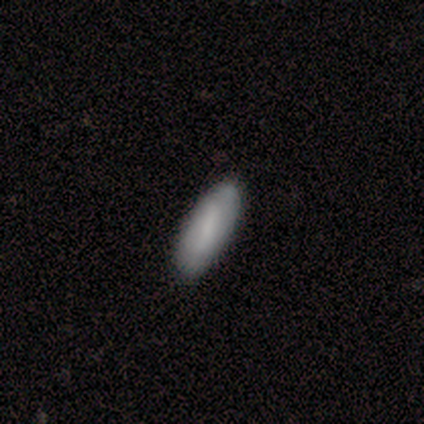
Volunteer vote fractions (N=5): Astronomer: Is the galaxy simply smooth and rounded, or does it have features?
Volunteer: smooth — 100%.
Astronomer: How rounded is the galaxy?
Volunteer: in between — 100%.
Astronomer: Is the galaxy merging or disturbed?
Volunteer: none — 100%.